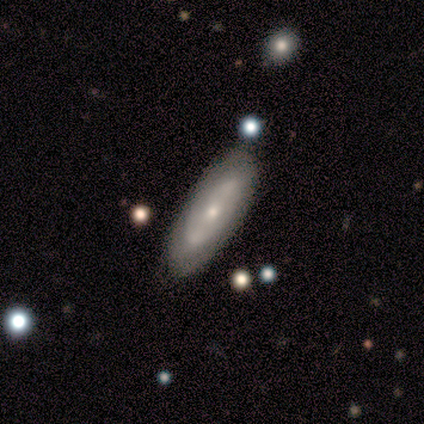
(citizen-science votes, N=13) This appears to be a featured or disk galaxy (69%) with no bar (71%), no spiral arms (100%) and a small central bulge (100%). Merging: none (75%).